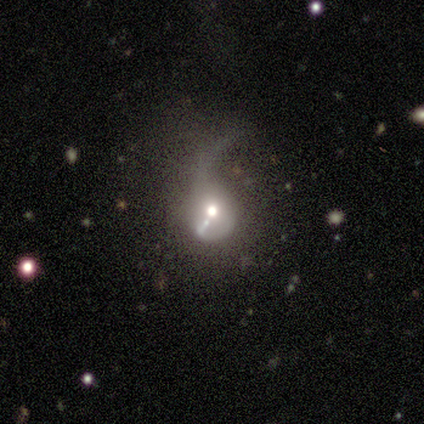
smooth_or_featured: featured or disk (p=0.50) [alt: smooth p=0.38]
disk_edge_on: no (p=0.95) [alt: yes p=0.05]
bar: no (p=0.89) [alt: weak p=0.11]
has_spiral_arms: no (p=0.68) [alt: yes p=0.32]
bulge_size: moderate (p=0.47) [alt: large p=0.21]
merging: major disturbance (p=0.80) [alt: minor disturbance p=0.09]